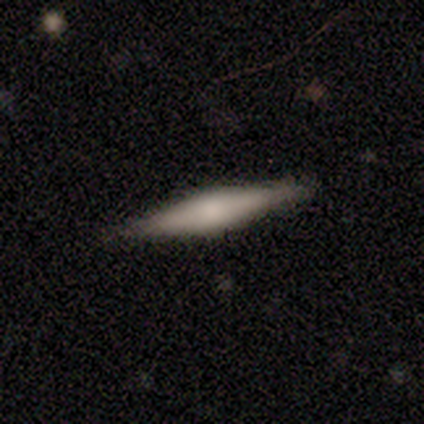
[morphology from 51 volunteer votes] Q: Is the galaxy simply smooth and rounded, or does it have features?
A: featured or disk — 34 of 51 (67%).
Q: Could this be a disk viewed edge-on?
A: yes — 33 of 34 (97%).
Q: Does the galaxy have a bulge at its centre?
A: rounded — 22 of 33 (67%).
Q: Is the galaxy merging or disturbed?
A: none — 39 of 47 (83%).